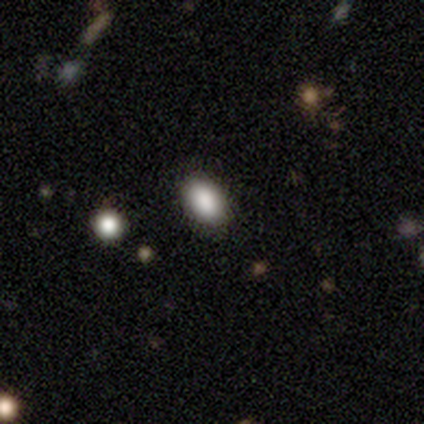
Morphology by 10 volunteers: Smooth or featured?
  - smooth: 100% *
  - featured or disk: 0%
  - star or artifact: 0%
How rounded?
  - in between: 90% *
  - round: 10%
  - cigar-shaped: 0%
Merging?
  - none: 100% *
  - minor disturbance: 0%
  - major disturbance: 0%
  - merger: 0%